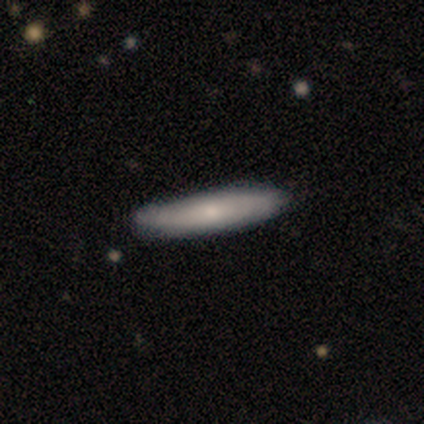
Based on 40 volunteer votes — Smooth or featured: smooth — 52% (featured or disk — 45%)
How rounded: cigar-shaped — 71% (in between — 29%)
Merging: none — 46% (minor disturbance — 15%)